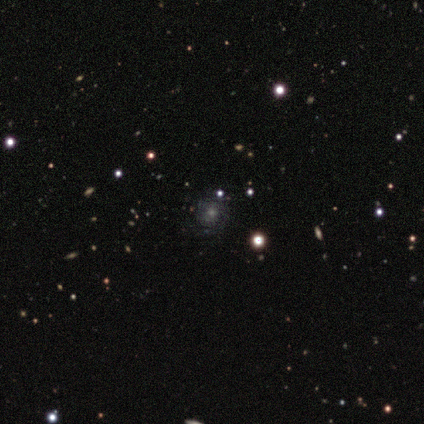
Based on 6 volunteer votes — Smooth or featured? 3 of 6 (50%) said smooth. How rounded? 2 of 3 (67%) said round. Merging? 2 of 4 (50%) said none.